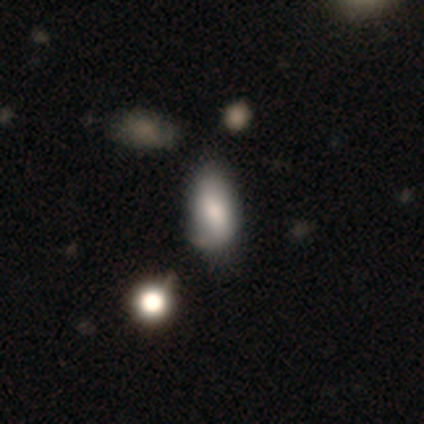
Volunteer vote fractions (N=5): Q: Smooth or featured?
A: smooth (60%); runner-up: featured or disk (40%)
Q: How rounded?
A: in between (100%)
Q: Merging?
A: none (60%); runner-up: minor disturbance (40%)